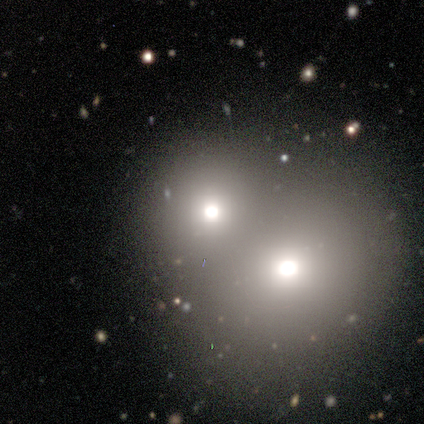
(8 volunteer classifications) A smooth galaxy with no disk features (62%) that is in between round and cigar-shaped (80%). Merging: merger (71%).